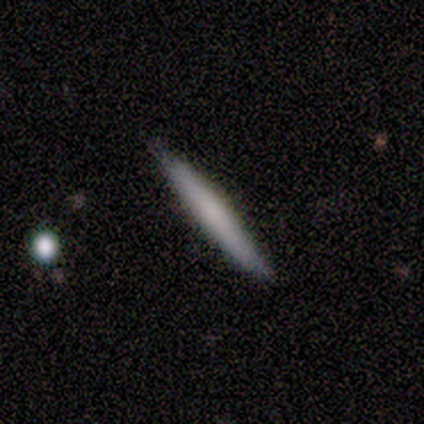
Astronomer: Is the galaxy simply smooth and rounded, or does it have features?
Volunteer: smooth — 100%.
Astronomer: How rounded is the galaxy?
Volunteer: cigar-shaped — 100%.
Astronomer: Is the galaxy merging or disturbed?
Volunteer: none — 80%.